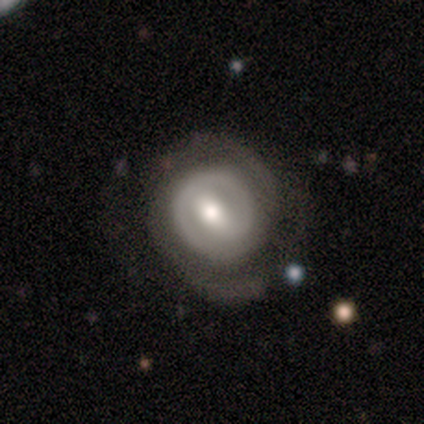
Morphology: type=featured or disk (100%); edge-on=no (100%); bar=no (60%); spiral arms=yes (80%); winding=tight (75%); arm count=2 (50%, tied with can't tell); bulge=moderate (100%); merging=none (100%).